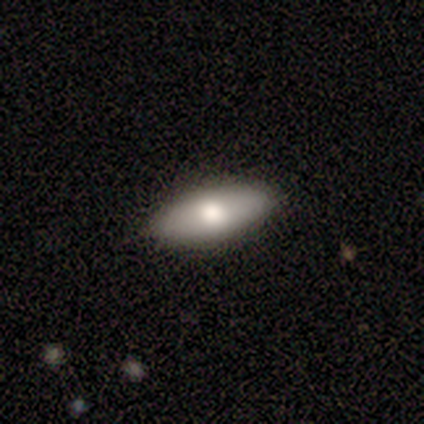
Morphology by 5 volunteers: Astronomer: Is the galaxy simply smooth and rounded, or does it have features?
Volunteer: smooth — 80%.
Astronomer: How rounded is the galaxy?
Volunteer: in between — 50%, tied with cigar-shaped at 50%.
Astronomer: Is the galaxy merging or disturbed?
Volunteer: none — 80%.